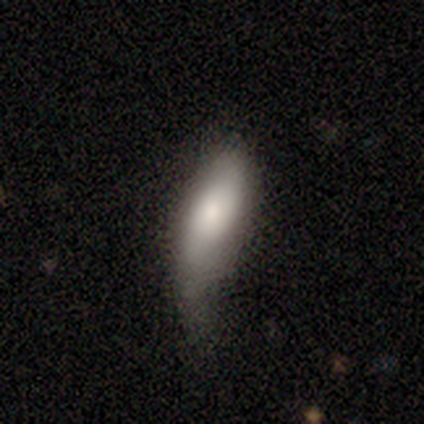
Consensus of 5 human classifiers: Smooth or featured? 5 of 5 (100%) said smooth. How rounded? 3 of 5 (60%) said in between. Merging? 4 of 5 (80%) said minor disturbance.